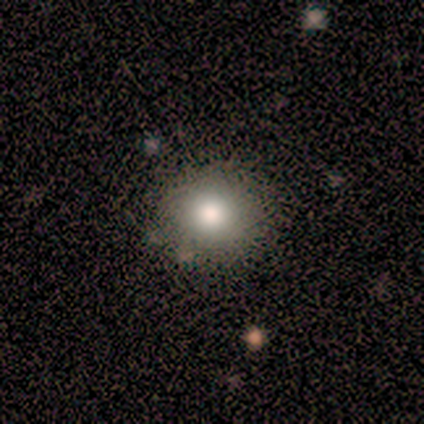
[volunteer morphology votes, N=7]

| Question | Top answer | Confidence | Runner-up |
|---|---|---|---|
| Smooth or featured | smooth | 100% | — |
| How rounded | round | 86% | in between (14%) |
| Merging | none | 71% | minor disturbance (29%) |